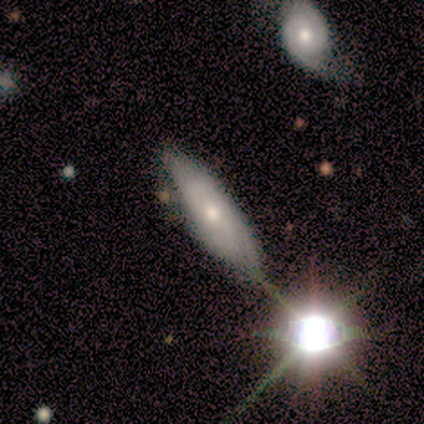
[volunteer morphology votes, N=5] type=featured or disk (60%); edge-on=no (67%); bar=no (100%); spiral arms=no (100%); bulge=small (100%); merging=major disturbance (50%).